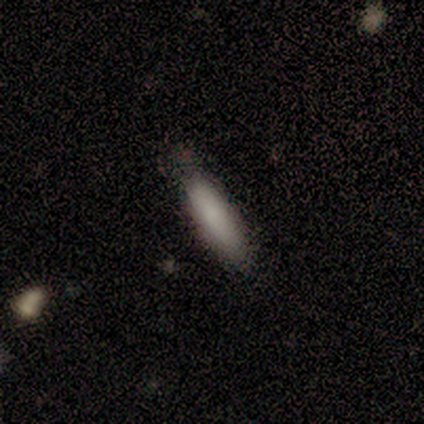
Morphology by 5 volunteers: Overall: smooth (80%). How rounded: cigar-shaped (100%). Merging: none (80%).